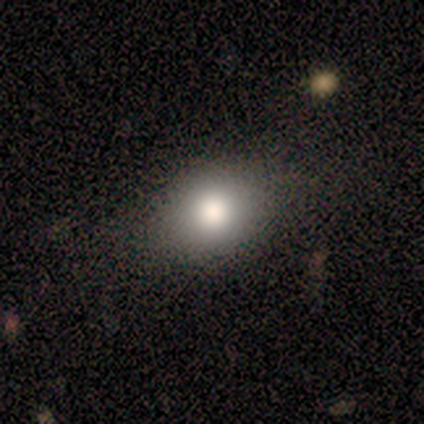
smooth-or-featured: smooth: 100% | featured or disk: 0% | star or artifact: 0%
  how-rounded: in between: 60% | round: 40% | cigar-shaped: 0%
  merging: none: 80% | minor disturbance: 20% | major disturbance: 0% | merger: 0%